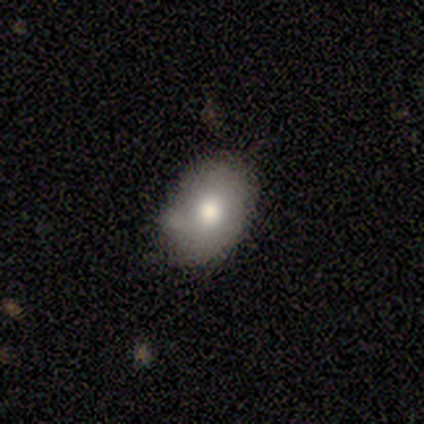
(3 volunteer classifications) Overall: smooth (33%, tied with featured or disk and star or artifact). How rounded: round (100%). Merging: none (50%, tied with minor disturbance).